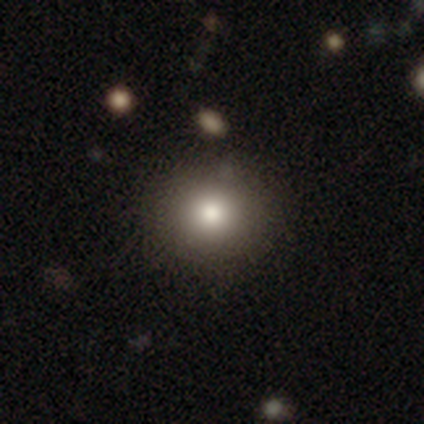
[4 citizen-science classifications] Smooth or featured: smooth — 75% (featured or disk — 25%)
How rounded: round — 100%
Merging: none — 100%